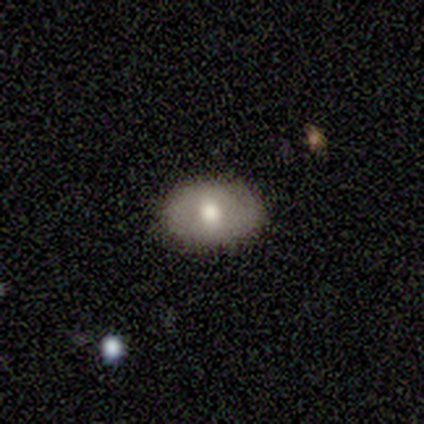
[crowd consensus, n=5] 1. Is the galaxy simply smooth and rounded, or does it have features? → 80% smooth, 20% featured or disk, 0% star or artifact.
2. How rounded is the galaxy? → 100% in between, 0% round, 0% cigar-shaped.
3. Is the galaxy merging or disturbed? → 80% none, 20% minor disturbance, 0% major disturbance, 0% merger.